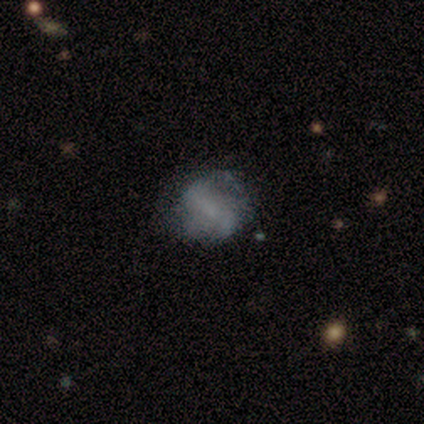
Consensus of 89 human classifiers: Smooth or featured: featured or disk — 51% (smooth — 38%)
Edge-on disk: no — 100%
Bar: no — 49% (weak — 27%)
Spiral arms: yes — 71% (no — 29%)
Spiral winding: loose — 56% (medium — 28%)
Spiral arm count: 2 — 72% (can't tell — 25%)
Bulge size: none — 56% (small — 38%)
Merging: none — 63% (minor disturbance — 24%)